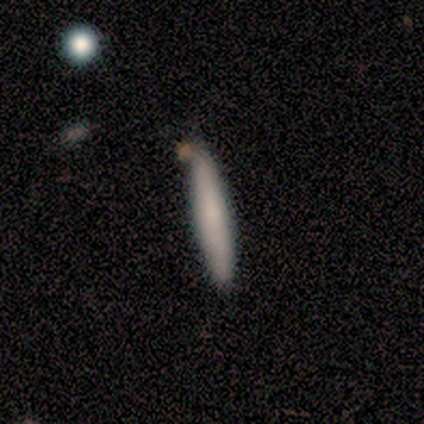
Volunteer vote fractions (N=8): smooth 88%, star or artifact 12%, featured or disk 0%. Down the decision tree: how rounded — cigar-shaped (100%); merging — none (100%).